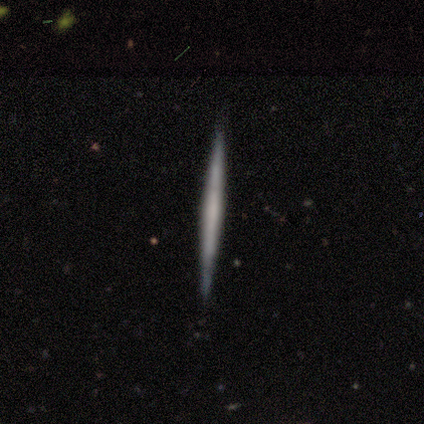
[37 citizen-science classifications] Smooth or featured?
  - featured or disk: 54% *
  - smooth: 41%
  - star or artifact: 5%
Edge-on disk?
  - yes: 100% *
  - no: 0%
Edge-on bulge?
  - none: 90% *
  - boxy: 5%
  - rounded: 5%
Merging?
  - none: 94% *
  - minor disturbance: 3%
  - merger: 3%
  - major disturbance: 0%